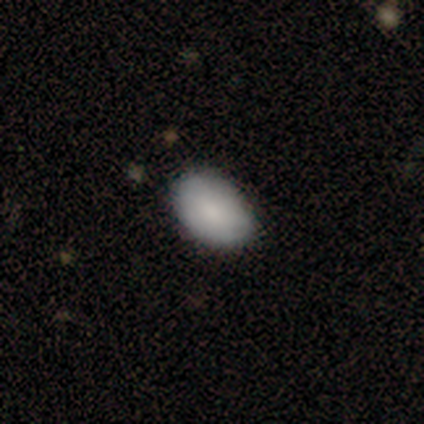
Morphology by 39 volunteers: smooth 90%, featured or disk 5%, star or artifact 5%. Down the decision tree: how rounded — in between (86%); merging — none (78%).